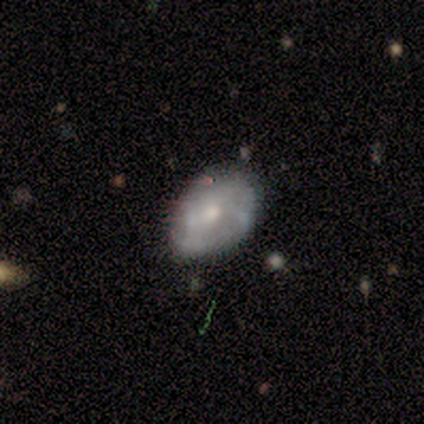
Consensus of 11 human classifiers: This is possibly a featured or disk galaxy (55%). It is clearly not viewed edge-on (100%). Bar: clearly no (100%). Spiral arm pattern: likely no (67%). Central bulge: likely moderate (67%). Merging: likely none (64%).